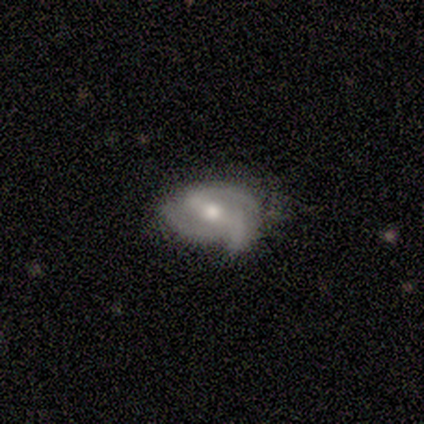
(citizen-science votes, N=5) Q: Smooth or featured?
A: featured or disk (80%); runner-up: smooth (20%)
Q: Edge-on disk?
A: no (100%)
Q: Bar?
A: weak (50%); runner-up: strong (25%)
Q: Spiral arms?
A: yes (100%)
Q: Spiral winding?
A: tight (50%); runner-up: medium (25%)
Q: Spiral arm count?
A: 2 (100%)
Q: Bulge size?
A: moderate (50%); tied with: small (50%)
Q: Merging?
A: none (100%)